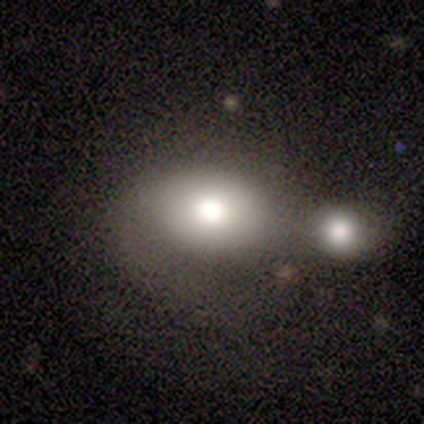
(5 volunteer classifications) This is clearly a smooth galaxy (100%). How rounded: clearly in between (80%). Merging: likely none (60%).